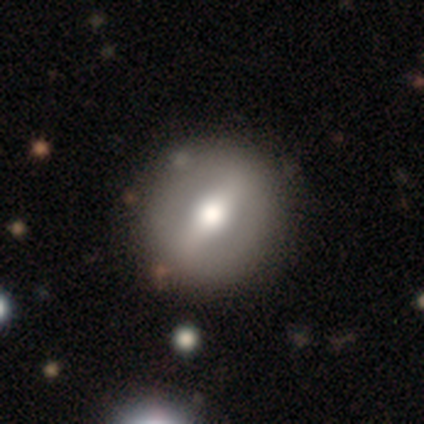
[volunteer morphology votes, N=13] A featured or disk galaxy (69%) with a strong bar (83%), no spiral arms (100%) and a large central bulge (50%, tied with moderate).

Vote fractions:
- Smooth or featured? featured or disk: 69% / smooth: 23% / star or artifact: 8%
- Edge-on disk? no: 67% / yes: 33%
- Bar? strong: 83% / weak: 17% / no: 0%
- Spiral arms? no: 100% / yes: 0%
- Bulge size? large: 50% (tied) / moderate: 50% (tied) / dominant: 0% / small: 0% / none: 0%
- Merging? none: 75% / minor disturbance: 25% / major disturbance: 0% / merger: 0%